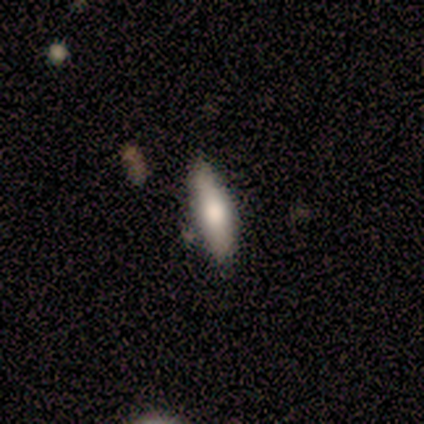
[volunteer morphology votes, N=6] A smooth galaxy with no disk features (50%, tied with featured or disk) that is in between round and cigar-shaped (100%). Merging: none (50%, tied with minor disturbance).